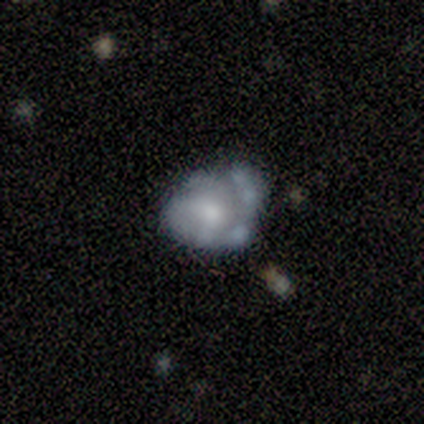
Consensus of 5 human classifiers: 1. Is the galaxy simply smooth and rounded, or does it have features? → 60% featured or disk, 40% smooth, 0% star or artifact.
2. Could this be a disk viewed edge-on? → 100% no, 0% yes.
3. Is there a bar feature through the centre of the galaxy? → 100% no, 0% strong, 0% weak.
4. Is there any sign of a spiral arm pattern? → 67% no, 33% yes.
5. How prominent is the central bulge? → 67% moderate, 33% none, 0% dominant, 0% large, 0% small.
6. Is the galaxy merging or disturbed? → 40% none (tied), 40% minor disturbance (tied), 20% merger, 0% major disturbance.